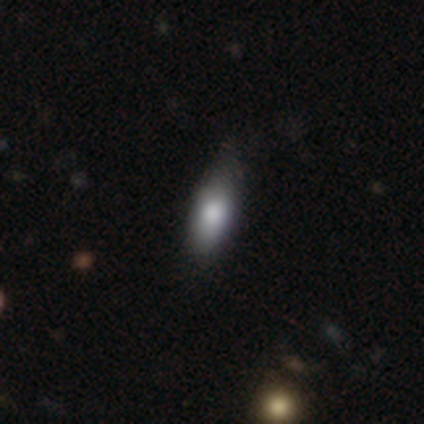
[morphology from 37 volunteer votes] Overall: smooth (73%). How rounded: in between (59%; cigar-shaped 41%). Merging: none (61%; minor disturbance 33%).